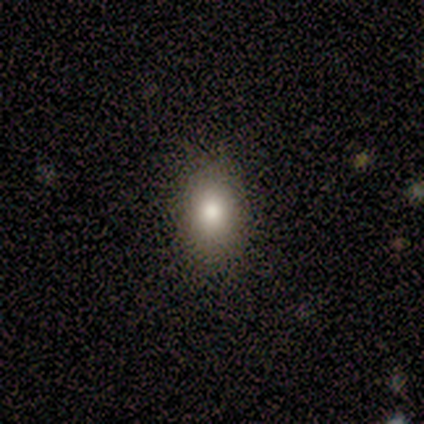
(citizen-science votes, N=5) A smooth galaxy with no disk features (100%) that is in between round and cigar-shaped (60%).

Vote fractions:
- Smooth or featured? smooth: 100% / featured or disk: 0% / star or artifact: 0%
- How rounded? in between: 60% / round: 40% / cigar-shaped: 0%
- Merging? none: 60% / minor disturbance: 40% / major disturbance: 0% / merger: 0%